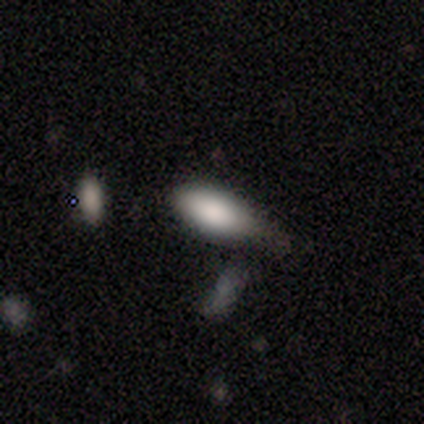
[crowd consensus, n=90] smooth_or_featured: smooth (p=0.82) [alt: featured or disk p=0.12]
how_rounded: in between (p=0.82) [alt: cigar-shaped p=0.15]
merging: minor disturbance (p=0.42) [alt: none p=0.39]